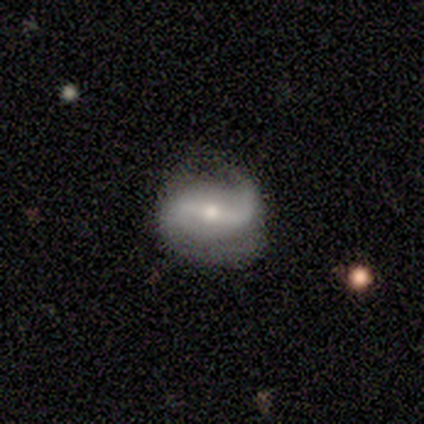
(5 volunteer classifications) This appears to be a featured or disk galaxy (100%) with a strong bar (80%), 2 (100%) tight (40%, tied with loose) spiral arms (100%) and a moderate central bulge (80%). Merging: none (80%).